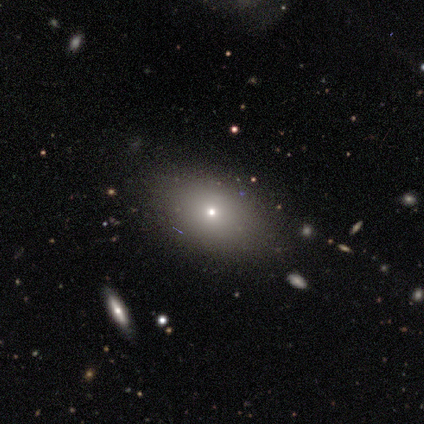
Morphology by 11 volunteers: This is possibly a smooth galaxy (55%). How rounded: clearly in between (83%). Merging: clearly none (89%).